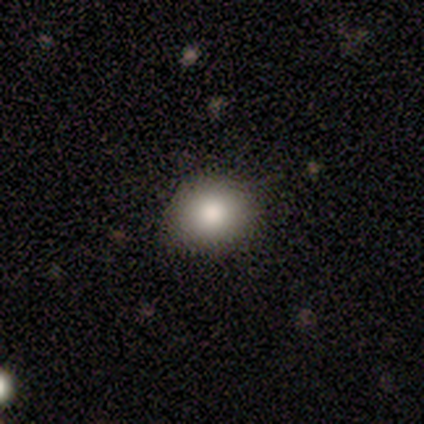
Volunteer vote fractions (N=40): Morphology: type=smooth (88%); roundness=round (74%); merging=none (83%).